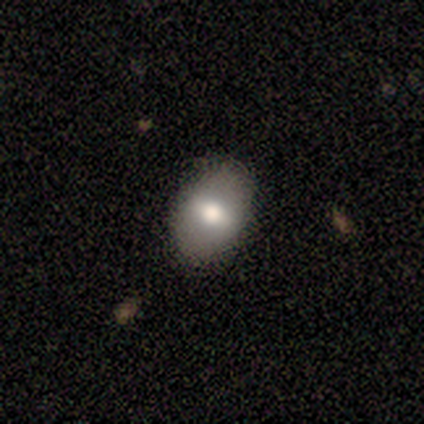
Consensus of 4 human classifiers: smooth_or_featured: smooth (p=0.75) [alt: featured or disk p=0.25]
how_rounded: in between (p=1.00)
merging: none (p=1.00)